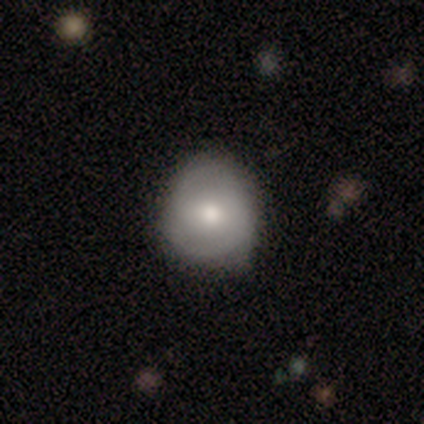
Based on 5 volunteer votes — Q: Smooth or featured?
A: smooth (60%); runner-up: featured or disk (40%)
Q: How rounded?
A: round (100%)
Q: Merging?
A: none (40%); tied with: minor disturbance (40%)